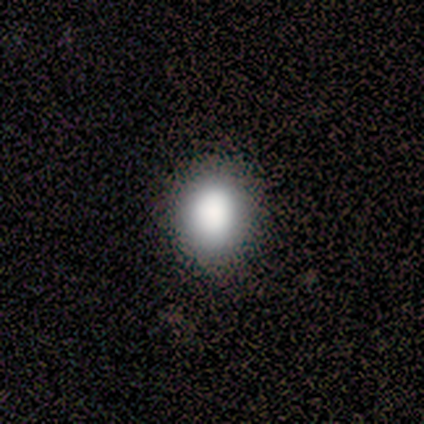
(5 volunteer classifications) smooth-or-featured: smooth: 80% | star or artifact: 20% | featured or disk: 0%
  how-rounded: round: 100% | in between: 0% | cigar-shaped: 0%
  merging: none: 100% | minor disturbance: 0% | major disturbance: 0% | merger: 0%